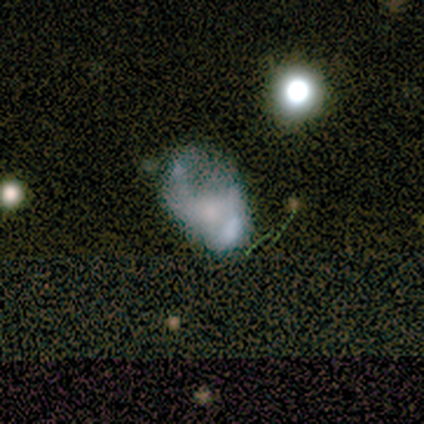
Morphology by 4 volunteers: Smooth or featured?
  - featured or disk: 75% *
  - smooth: 25%
  - star or artifact: 0%
Edge-on disk?
  - no: 100% *
  - yes: 0%
Bar?
  - no: 100% *
  - strong: 0%
  - weak: 0%
Spiral arms?
  - no: 100% *
  - yes: 0%
Bulge size?
  - none: 67% *
  - small: 33%
  - dominant: 0%
  - large: 0%
  - moderate: 0%
Merging?
  - none: 50% * (tied)
  - major disturbance: 50% * (tied)
  - minor disturbance: 0%
  - merger: 0%